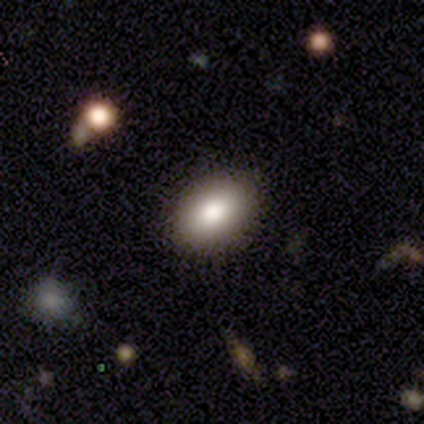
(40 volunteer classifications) A smooth galaxy with no disk features (82%) that is in between round and cigar-shaped (88%). Merging: none (97%).